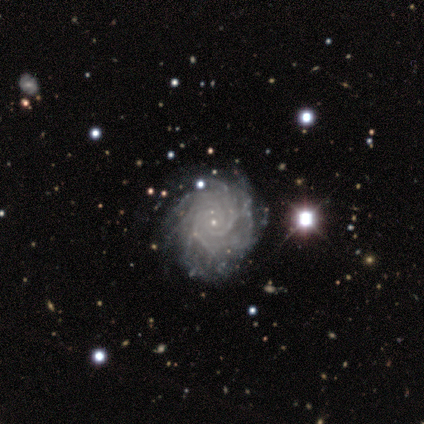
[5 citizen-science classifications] Smooth or featured: featured or disk — 100%
Edge-on disk: no — 100%
Bar: no — 80% (strong — 20%)
Spiral arms: yes — 100%
Spiral winding: tight — 100%
Spiral arm count: more than 4 — 40% (3 — 20%)
Bulge size: small — 100%
Merging: none — 80% (minor disturbance — 20%)